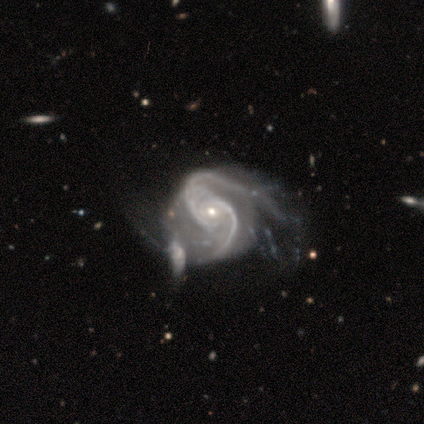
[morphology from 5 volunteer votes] Smooth or featured? 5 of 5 (100%) said featured or disk. Edge-on disk? 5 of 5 (100%) said no. Bar? 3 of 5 (60%) said no. Spiral arms? 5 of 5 (100%) said yes. Spiral winding? 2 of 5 (40%, tied with medium) said tight. Spiral arm count? 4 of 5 (80%) said 2. Bulge size? 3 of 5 (60%) said small. Merging? 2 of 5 (40%, tied with major disturbance) said minor disturbance.